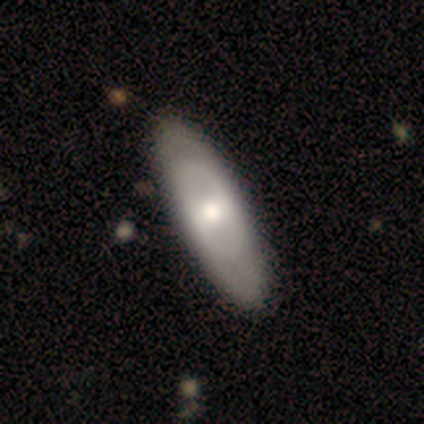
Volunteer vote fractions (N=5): Smooth or featured? featured or disk (80%)
Edge-on disk? yes (50%, tied with no)
Edge-on bulge? rounded (100%)
Merging? none (100%)